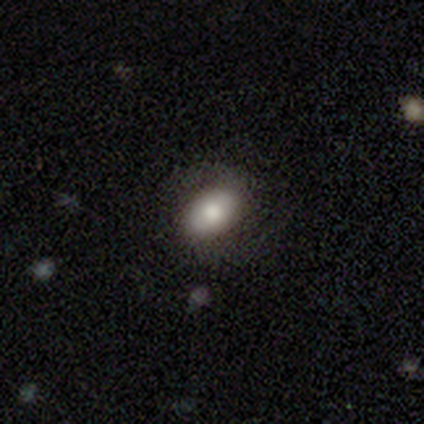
A smooth galaxy with no disk features (80%) that is in between round and cigar-shaped (100%).

Vote fractions:
- Smooth or featured? smooth: 80% / featured or disk: 20% / star or artifact: 0%
- How rounded? in between: 100% / round: 0% / cigar-shaped: 0%
- Merging? none: 60% / minor disturbance: 40% / major disturbance: 0% / merger: 0%